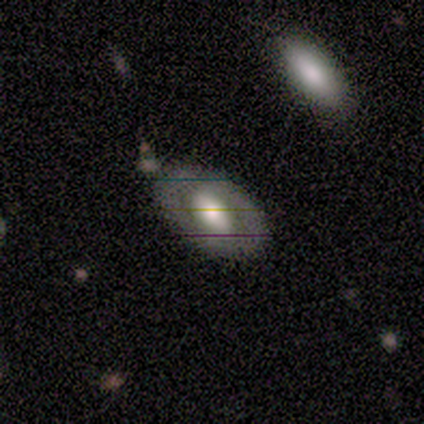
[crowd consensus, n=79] Morphology: type=featured or disk (63%); edge-on=no (86%); bar=no (56%); spiral arms=no (74%); bulge=large (47%); merging=none (70%).